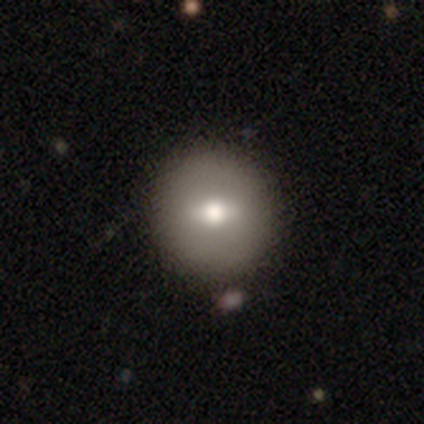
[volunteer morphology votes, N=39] Smooth or featured? 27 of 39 (69%) said smooth. How rounded? 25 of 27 (93%) said round. Merging? 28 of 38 (74%) said none.